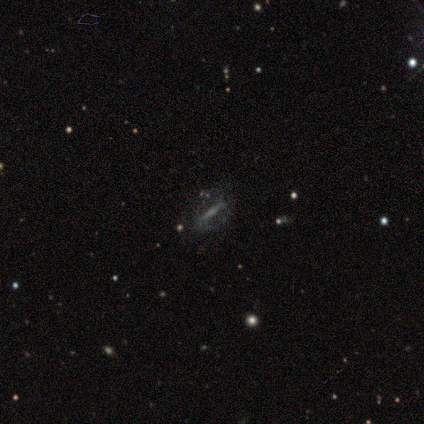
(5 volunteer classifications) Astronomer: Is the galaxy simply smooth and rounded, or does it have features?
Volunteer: featured or disk — 60%.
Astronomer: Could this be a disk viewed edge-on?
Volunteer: yes — 67%.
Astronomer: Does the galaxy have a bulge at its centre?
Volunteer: rounded — 100%.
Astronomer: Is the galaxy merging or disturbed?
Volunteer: none — 50%, tied with minor disturbance at 50%.